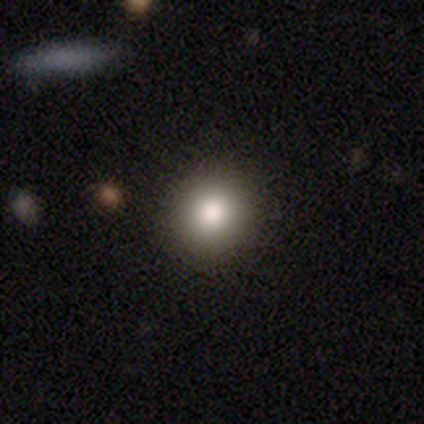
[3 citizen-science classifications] Q: Smooth or featured?
A: smooth (100%)
Q: How rounded?
A: round (100%)
Q: Merging?
A: none (100%)